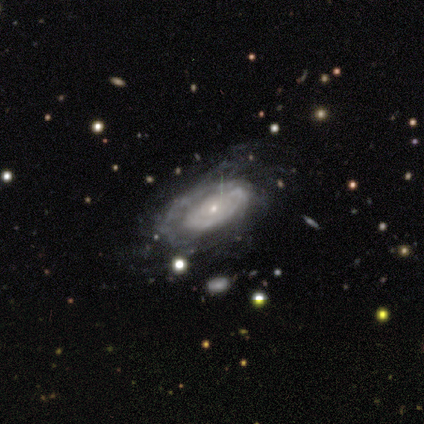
Smooth or featured: featured or disk — 100%
Edge-on disk: no — 90% (yes — 10%)
Bar: no — 78% (strong — 11%)
Spiral arms: yes — 78% (no — 22%)
Spiral winding: medium — 57% (tight — 43%)
Spiral arm count: can't tell — 71% (1 — 14%)
Bulge size: small — 100%
Merging: none — 60% (major disturbance — 30%)